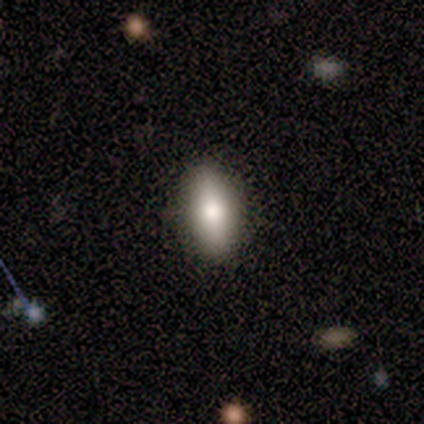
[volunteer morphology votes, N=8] smooth_or_featured: smooth (p=0.62) [alt: featured or disk p=0.38]
how_rounded: in between (p=0.80) [alt: cigar-shaped p=0.20]
merging: none (p=1.00)